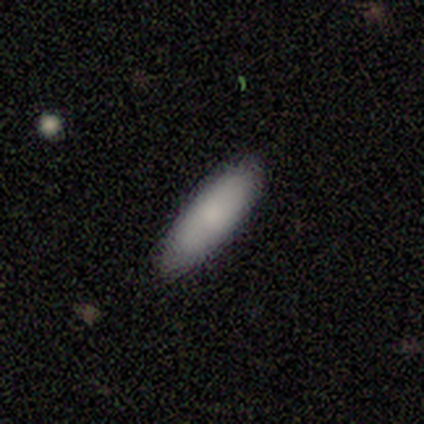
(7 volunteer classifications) Overall: smooth (86%). How rounded: in between (50%, tied with cigar-shaped). Merging: none (100%).